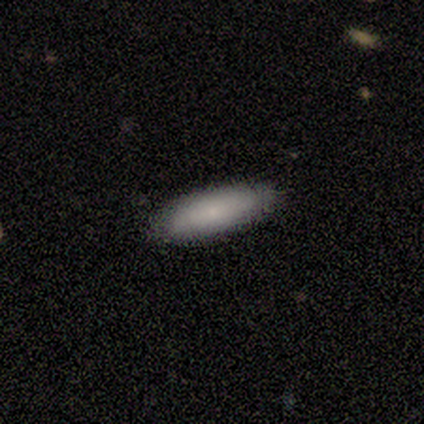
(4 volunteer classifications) Morphology: type=smooth (50%, tied with featured or disk); roundness=in between (100%); merging=none (50%, tied with minor disturbance).